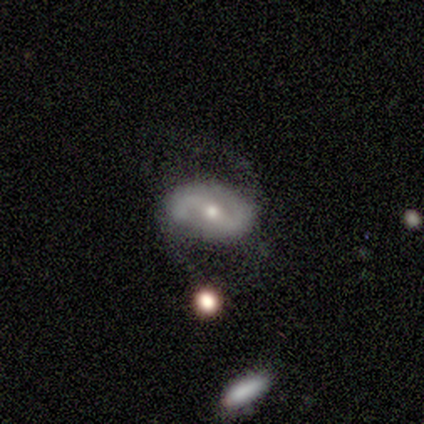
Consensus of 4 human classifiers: Smooth or featured: smooth — 50% (tied with featured or disk — 50%)
How rounded: in between — 100%
Merging: minor disturbance — 50% (none — 25%)